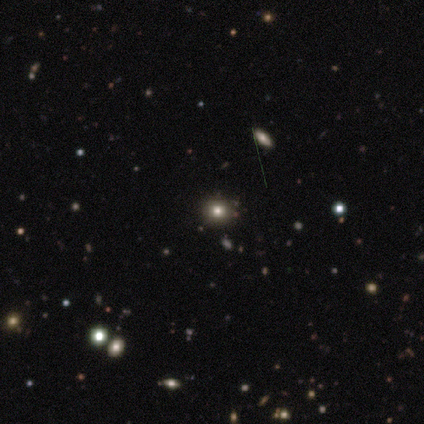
Morphology: type=smooth (79%); roundness=round (82%); merging=none (100%).